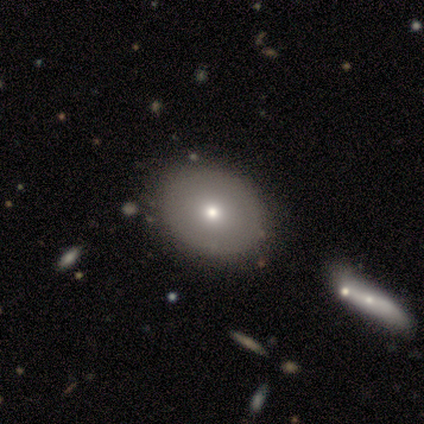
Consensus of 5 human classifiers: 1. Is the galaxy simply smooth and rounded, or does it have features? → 80% smooth, 20% featured or disk, 0% star or artifact.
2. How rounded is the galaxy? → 75% in between, 25% round, 0% cigar-shaped.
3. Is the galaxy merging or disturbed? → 80% none, 20% major disturbance, 0% minor disturbance, 0% merger.